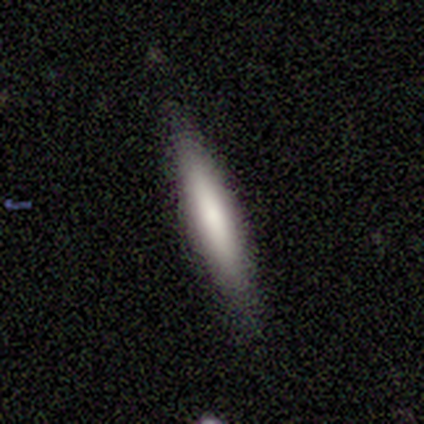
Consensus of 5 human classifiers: Smooth or featured: smooth — 100%
How rounded: cigar-shaped — 80% (in between — 20%)
Merging: none — 80% (minor disturbance — 20%)